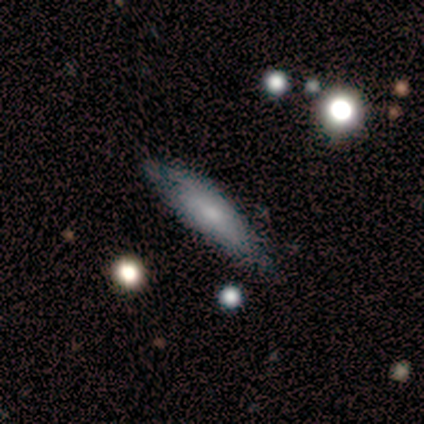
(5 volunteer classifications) Smooth or featured? smooth (100%)
How rounded? in between (100%)
Merging? none (100%)